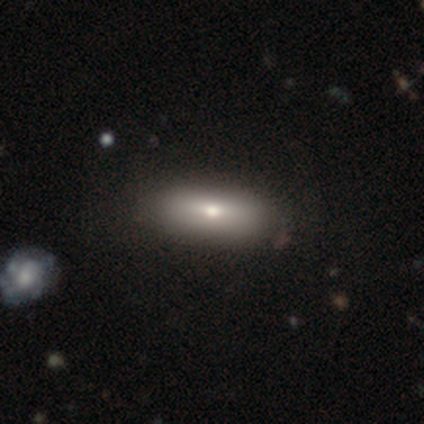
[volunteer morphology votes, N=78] Smooth or featured? smooth (81%)
How rounded? in between (76%)
Merging? none (47%)